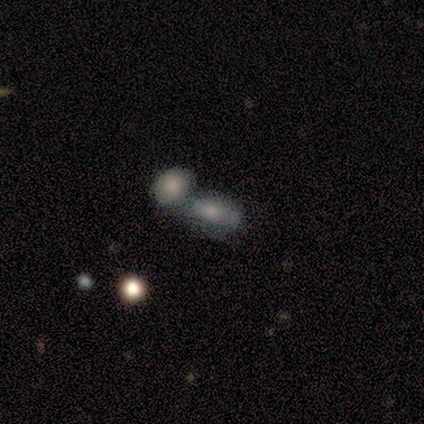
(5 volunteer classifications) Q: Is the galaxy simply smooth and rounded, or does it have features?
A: smooth — 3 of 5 (60%).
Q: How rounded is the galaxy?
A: in between — 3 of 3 (100%).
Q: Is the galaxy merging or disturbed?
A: none — 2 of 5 (40%, tied with merger).